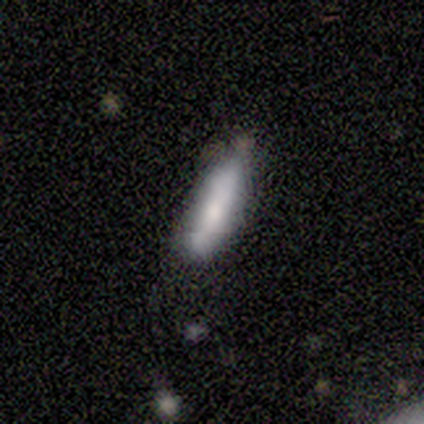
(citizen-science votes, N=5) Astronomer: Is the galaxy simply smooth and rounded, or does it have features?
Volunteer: featured or disk — 60% (runner-up: smooth, 40%).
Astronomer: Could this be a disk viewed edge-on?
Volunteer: yes — 67%.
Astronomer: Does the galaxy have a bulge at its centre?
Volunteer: boxy — 50%, tied with rounded at 50%.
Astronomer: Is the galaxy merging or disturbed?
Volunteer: none — 60% (runner-up: minor disturbance, 40%).